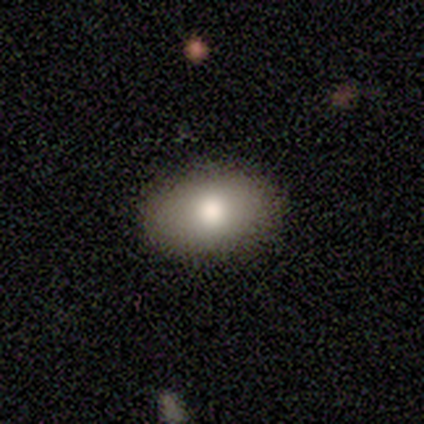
smooth-or-featured: smooth: 100% | featured or disk: 0% | star or artifact: 0%
  how-rounded: in between: 80% | round: 20% | cigar-shaped: 0%
  merging: none: 100% | minor disturbance: 0% | major disturbance: 0% | merger: 0%